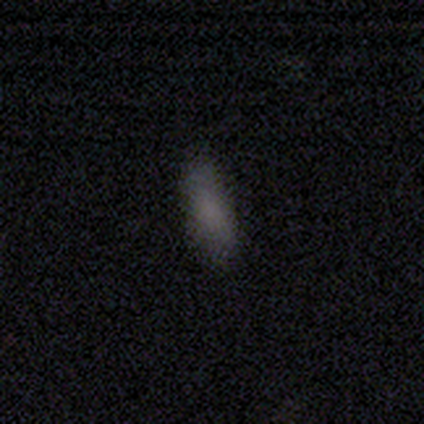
Q: Smooth or featured?
A: smooth (88%); runner-up: star or artifact (12%)
Q: How rounded?
A: in between (60%); runner-up: cigar-shaped (40%)
Q: Merging?
A: none (93%); runner-up: minor disturbance (7%)